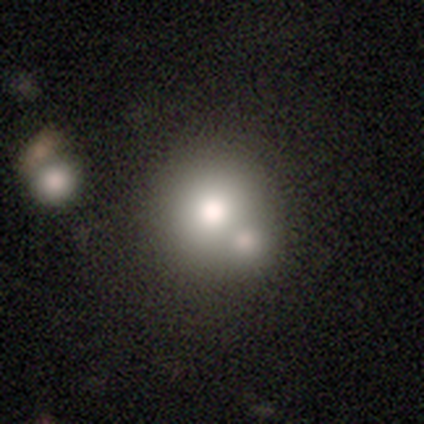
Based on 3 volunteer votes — Morphology: type=smooth (100%); roundness=round (100%); merging=merger (67%).